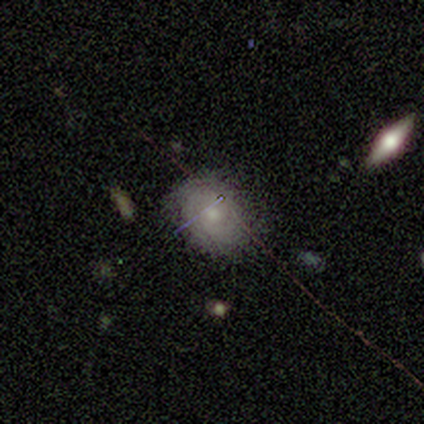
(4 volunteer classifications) This appears to be a smooth galaxy with no disk features (75%) that is in between round and cigar-shaped (100%). Merging: none (100%).